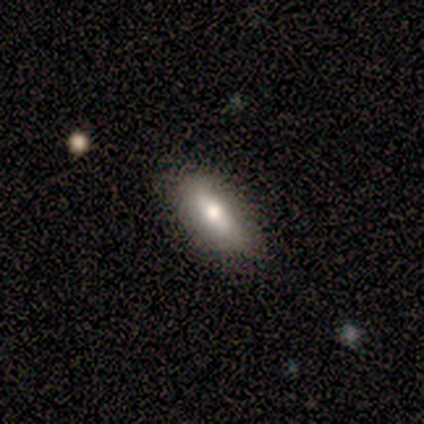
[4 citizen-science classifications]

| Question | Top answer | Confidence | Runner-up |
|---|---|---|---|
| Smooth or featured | smooth | 50% | featured or disk (25%) |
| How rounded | in between | 100% | — |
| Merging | none | 100% | — |